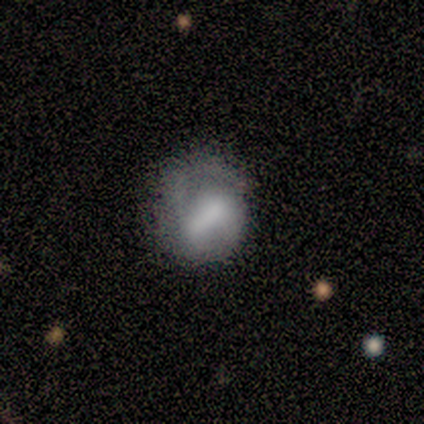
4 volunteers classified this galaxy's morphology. smooth_or_featured: smooth (p=0.75) [alt: featured or disk p=0.25]
how_rounded: in between (p=0.67) [alt: round p=0.33]
merging: none (p=0.50) [tied with: major disturbance p=0.50]